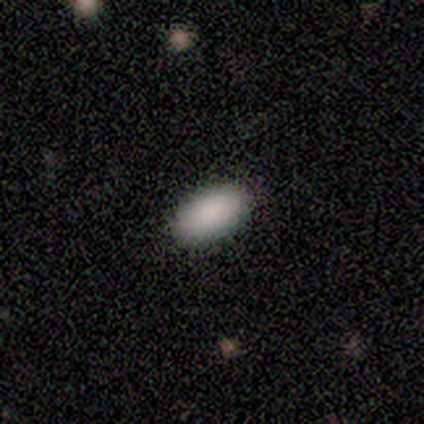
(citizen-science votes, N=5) This appears to be a smooth galaxy with no disk features (80%) that is in between round and cigar-shaped (100%). Merging: none (100%).